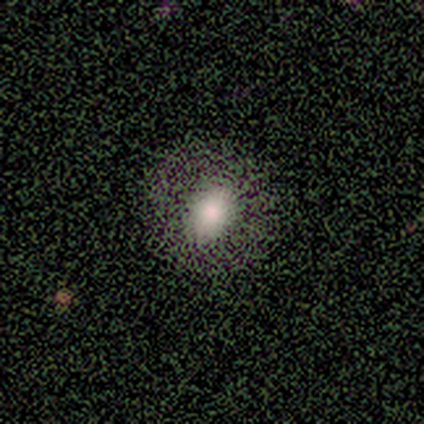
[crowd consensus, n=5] A smooth galaxy with no disk features (60%) that is round (67%).

Vote fractions:
- Smooth or featured? smooth: 60% / featured or disk: 40% / star or artifact: 0%
- How rounded? round: 67% / in between: 33% / cigar-shaped: 0%
- Merging? none: 80% / minor disturbance: 20% / major disturbance: 0% / merger: 0%